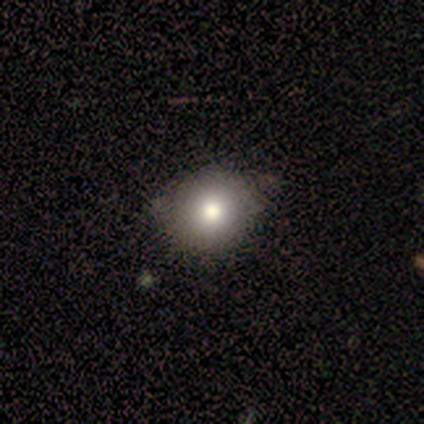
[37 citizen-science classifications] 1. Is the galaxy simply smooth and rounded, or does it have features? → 84% smooth, 11% featured or disk, 5% star or artifact.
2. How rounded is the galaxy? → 77% round, 23% in between, 0% cigar-shaped.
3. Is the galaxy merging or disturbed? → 63% none, 14% minor disturbance, 0% major disturbance, 0% merger.